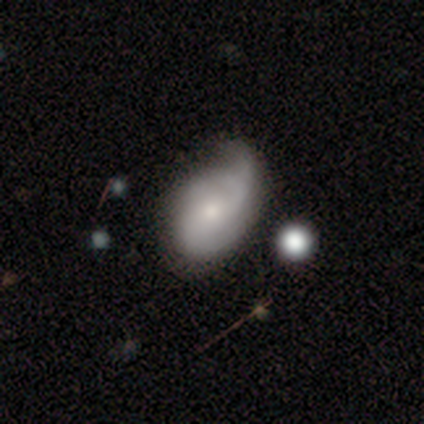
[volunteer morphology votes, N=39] Smooth or featured? featured or disk (54%)
Edge-on disk? no (95%)
Bar? no (80%)
Spiral arms? yes (80%)
Spiral winding? loose (50%)
Spiral arm count? 2 (62%)
Bulge size? small (50%)
Merging? minor disturbance (57%)